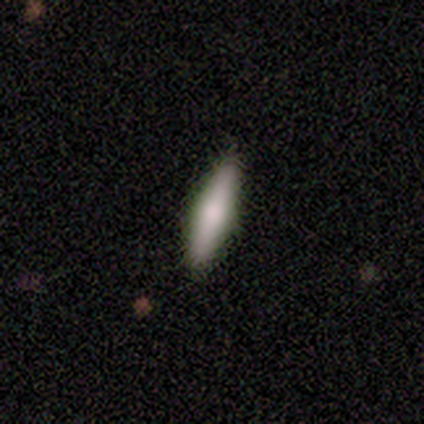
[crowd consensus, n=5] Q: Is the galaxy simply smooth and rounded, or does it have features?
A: smooth — 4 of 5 (80%).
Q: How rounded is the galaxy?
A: cigar-shaped — 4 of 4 (100%).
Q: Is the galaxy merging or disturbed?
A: none — 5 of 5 (100%).